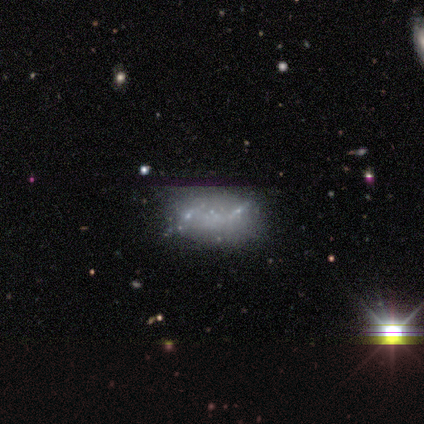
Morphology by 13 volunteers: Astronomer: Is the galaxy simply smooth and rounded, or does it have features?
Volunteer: featured or disk — 54% (runner-up: star or artifact, 38%).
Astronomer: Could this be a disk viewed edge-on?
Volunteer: no — 100%.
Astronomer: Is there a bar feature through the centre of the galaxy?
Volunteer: no — 71%.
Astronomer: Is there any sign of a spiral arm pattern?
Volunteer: no — 100%.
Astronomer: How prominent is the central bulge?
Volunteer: none — 57% (runner-up: small, 43%).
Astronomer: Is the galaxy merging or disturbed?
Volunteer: none — 62%.